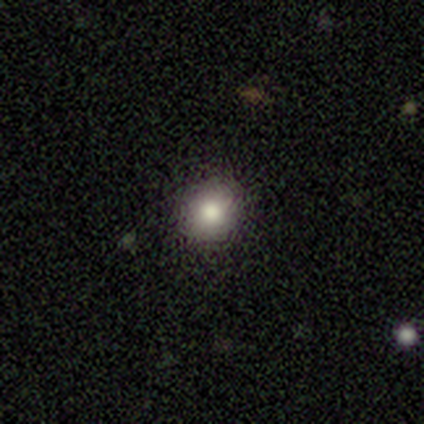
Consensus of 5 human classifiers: Q: Smooth or featured?
A: smooth (60%); runner-up: featured or disk (20%)
Q: How rounded?
A: round (67%); runner-up: in between (33%)
Q: Merging?
A: none (75%); runner-up: minor disturbance (25%)